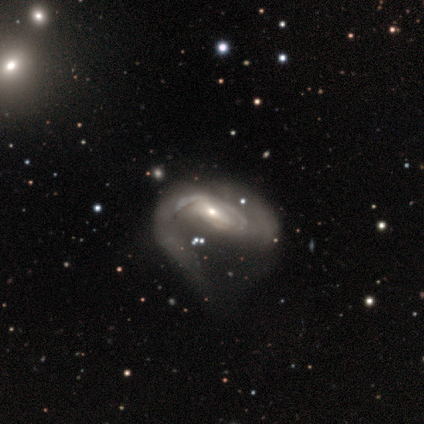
Q: Smooth or featured?
A: featured or disk (82%); runner-up: smooth (12%)
Q: Edge-on disk?
A: no (91%); runner-up: yes (9%)
Q: Bar?
A: no (43%); runner-up: weak (38%)
Q: Spiral arms?
A: yes (95%); runner-up: no (5%)
Q: Spiral winding?
A: tight (42%); runner-up: loose (30%)
Q: Spiral arm count?
A: 2 (45%); runner-up: 1 (22%)
Q: Bulge size?
A: small (52%); runner-up: moderate (38%)
Q: Merging?
A: major disturbance (45%); runner-up: none (25%)